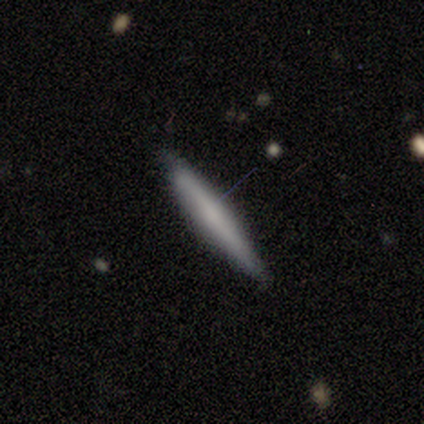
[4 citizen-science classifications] This appears to be a smooth galaxy with no disk features (100%) that is cigar-shaped (100%). Merging: none (100%).